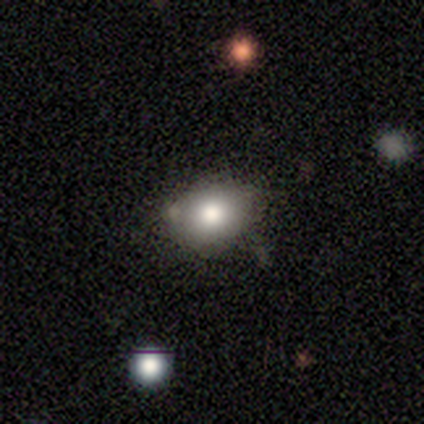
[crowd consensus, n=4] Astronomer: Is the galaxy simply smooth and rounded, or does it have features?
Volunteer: smooth — 50%, tied with star or artifact at 50%.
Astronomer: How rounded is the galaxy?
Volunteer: round — 100%.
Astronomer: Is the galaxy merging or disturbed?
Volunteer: none — 50%, tied with minor disturbance at 50%.